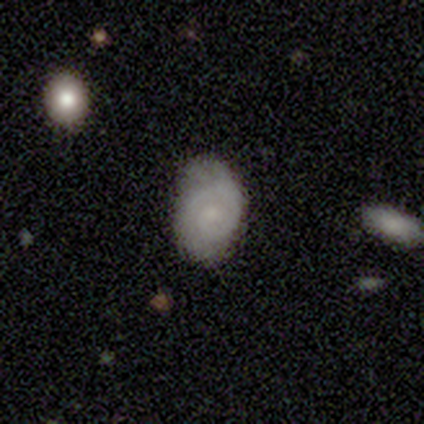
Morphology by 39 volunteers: A featured or disk galaxy (59%) with no bar (82%), 1 (58%) tight (53%) spiral arms (86%) and a small central bulge (59%). Merging: none (59%).